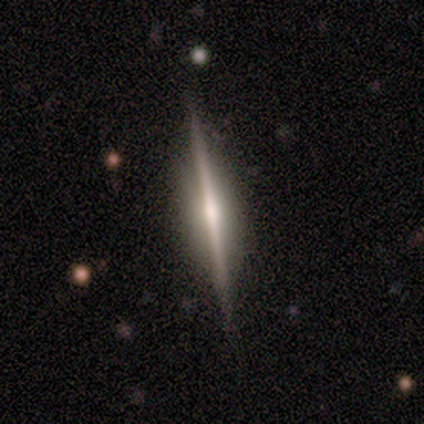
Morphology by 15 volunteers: This appears to be a featured or disk galaxy (93%) viewed edge-on (100%) with a rounded central bulge (79%). Merging: none (86%).